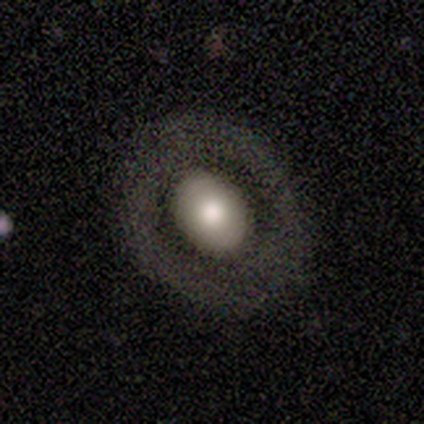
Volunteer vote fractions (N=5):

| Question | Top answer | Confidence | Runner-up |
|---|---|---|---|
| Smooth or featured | smooth | 60% | featured or disk (40%) |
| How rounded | round | 100% | — |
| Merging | none | 60% | minor disturbance (40%) |